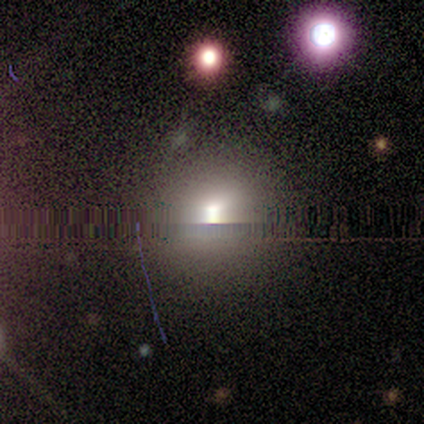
Smooth or featured: smooth — 67% (star or artifact — 33%)
How rounded: round — 100%
Merging: none — 100%